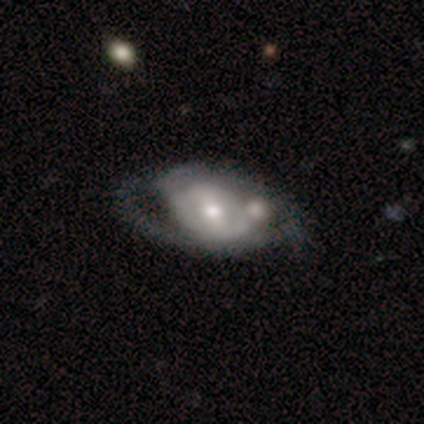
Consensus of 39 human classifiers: Overall: featured or disk (85%). Edge-on disk: no (94%). Bar: strong (48%; weak 35%). Spiral arms: yes (71%). Spiral arm count: 2 (73%). Spiral winding: medium (55%; loose 27%). Bulge size: moderate (77%). Merging: none (28%, tied with merger).